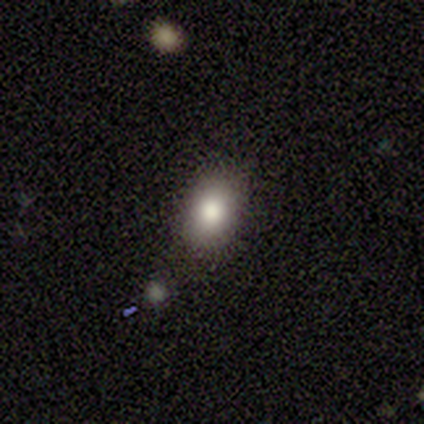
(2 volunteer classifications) Overall: smooth (100%). How rounded: in between (100%). Merging: none (50%, tied with minor disturbance).